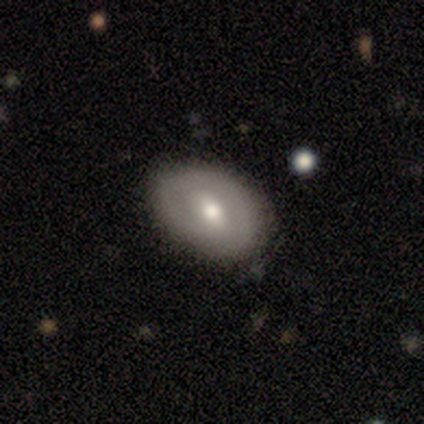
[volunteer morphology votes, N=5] A smooth galaxy with no disk features (40%, tied with featured or disk) that is in between round and cigar-shaped (100%).

Vote fractions:
- Smooth or featured? smooth: 40% (tied) / featured or disk: 40% (tied) / star or artifact: 20%
- How rounded? in between: 100% / round: 0% / cigar-shaped: 0%
- Merging? none: 50% (tied) / minor disturbance: 50% (tied) / major disturbance: 0% / merger: 0%